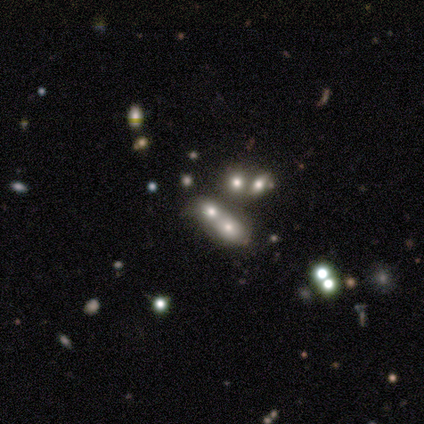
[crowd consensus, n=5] Volunteers were most divided on "merging": merger: 50%, none: 25%, major disturbance: 25%, minor disturbance: 0%. More confident: how rounded — in between (100%); smooth or featured — smooth (80%).